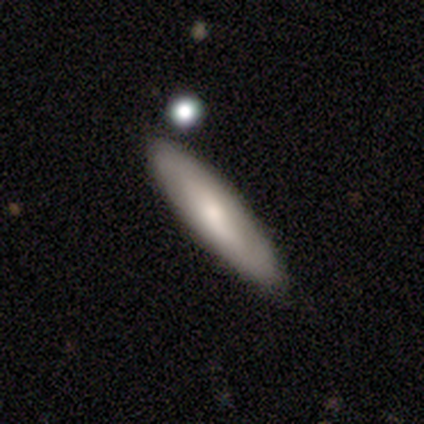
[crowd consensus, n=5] Overall: featured or disk (60%; smooth 20%). Edge-on disk: yes (67%; no 33%). Edge-on bulge: none (50%, tied with rounded). Merging: none (50%, tied with minor disturbance).